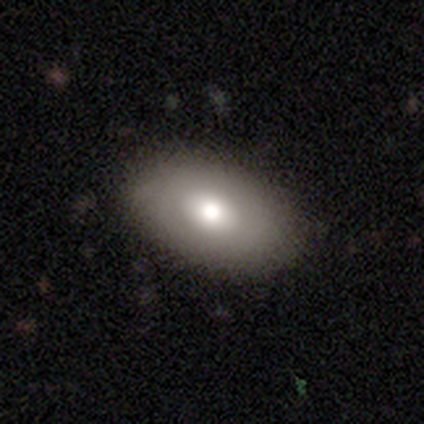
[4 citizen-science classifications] Smooth or featured? 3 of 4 (75%) said smooth. How rounded? 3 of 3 (100%) said in between. Merging? 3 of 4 (75%) said none.